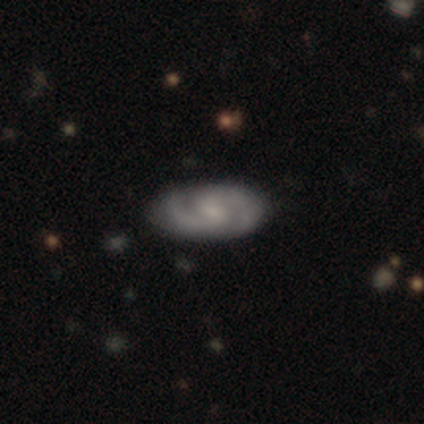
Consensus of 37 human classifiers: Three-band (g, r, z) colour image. It shows a featured or disk galaxy (76%) with a weak bar (42%), 2 (92%) medium (56%) spiral arms (96%) and a small central bulge (38%). Merging: none (81%).